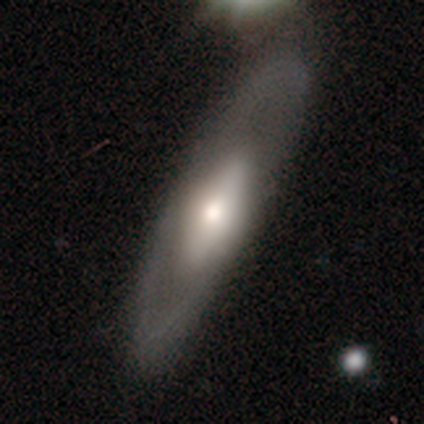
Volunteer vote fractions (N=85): A featured or disk galaxy (65%) with no bar (78%), no spiral arms (78%) and a moderate central bulge (49%).

Vote fractions:
- Smooth or featured? featured or disk: 65% / smooth: 32% / star or artifact: 4%
- Edge-on disk? no: 67% / yes: 33%
- Bar? no: 78% / weak: 16% / strong: 5%
- Spiral arms? no: 78% / yes: 22%
- Bulge size? moderate: 49% / small: 24% / large: 22% / dominant: 5% / none: 0%
- Merging? none: 72% / minor disturbance: 15% / major disturbance: 7% / merger: 6%